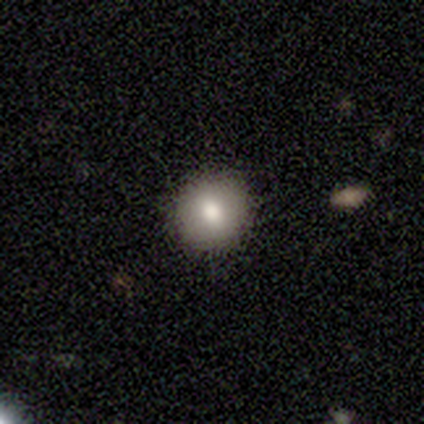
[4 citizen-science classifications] smooth 50%, featured or disk 25%, star or artifact 25%. Down the decision tree: how rounded — round (100%); merging — none (100%).